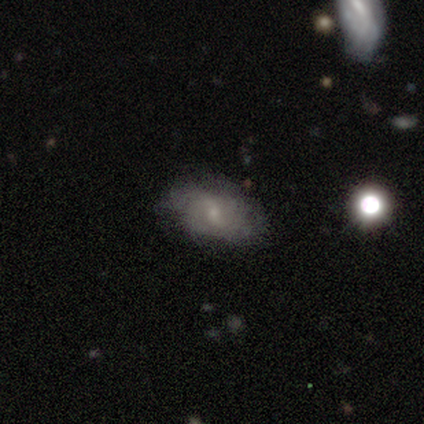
This is possibly a featured or disk galaxy (49%). It is clearly not viewed edge-on (100%). Bar: possibly weak (50%). Spiral arm pattern: likely yes (67%). Spiral arm count: possibly 2 (50%). Spiral winding: possibly loose (50%). Central bulge: likely small (72%). Merging: likely none (67%).